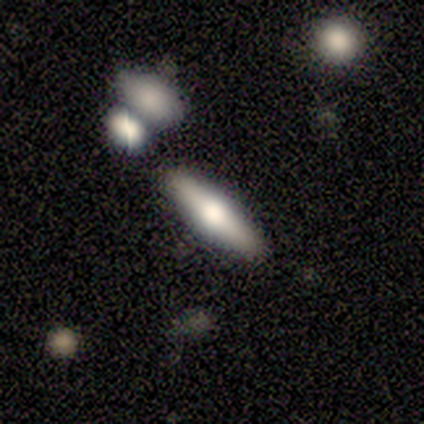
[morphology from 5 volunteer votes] Smooth or featured? 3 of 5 (60%) said featured or disk. Edge-on disk? 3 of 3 (100%) said yes. Edge-on bulge? 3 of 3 (100%) said rounded. Merging? 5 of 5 (100%) said none.